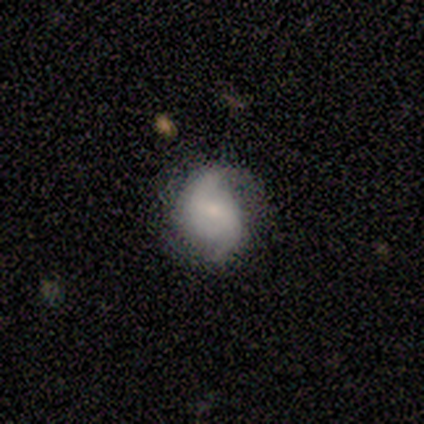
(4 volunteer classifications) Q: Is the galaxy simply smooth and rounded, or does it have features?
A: featured or disk — 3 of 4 (75%).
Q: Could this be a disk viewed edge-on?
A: no — 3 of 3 (100%).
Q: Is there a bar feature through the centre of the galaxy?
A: strong — 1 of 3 (33%, tied with weak and no).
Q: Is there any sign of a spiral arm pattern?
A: yes — 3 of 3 (100%).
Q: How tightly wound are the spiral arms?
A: tight — 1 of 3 (33%, tied with medium and loose).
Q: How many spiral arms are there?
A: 2 — 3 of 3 (100%).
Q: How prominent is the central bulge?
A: moderate — 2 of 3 (67%).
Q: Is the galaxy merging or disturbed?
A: none — 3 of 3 (100%).